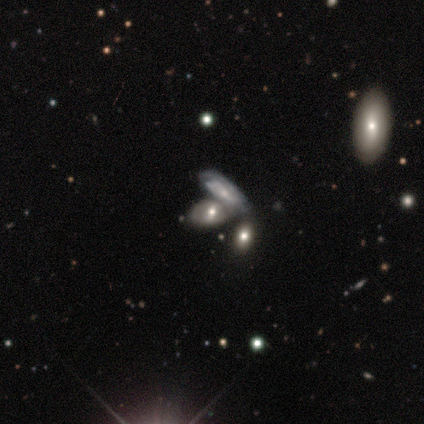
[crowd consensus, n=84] Smooth or featured?
  - featured or disk: 56% *
  - smooth: 31%
  - star or artifact: 13%
Edge-on disk?
  - no: 89% *
  - yes: 11%
Bar?
  - no: 55% *
  - weak: 36%
  - strong: 10%
Spiral arms?
  - yes: 62% *
  - no: 38%
Spiral winding?
  - tight: 58% *
  - medium: 35%
  - loose: 8%
Spiral arm count?
  - can't tell: 54% *
  - 2: 35%
  - 4: 8%
  - 1: 4%
  - 3: 0%
  - more than 4: 0%
Bulge size?
  - moderate: 60% *
  - small: 38%
  - none: 2%
  - dominant: 0%
  - large: 0%
Merging?
  - merger: 63% *
  - none: 25%
  - major disturbance: 7%
  - minor disturbance: 5%